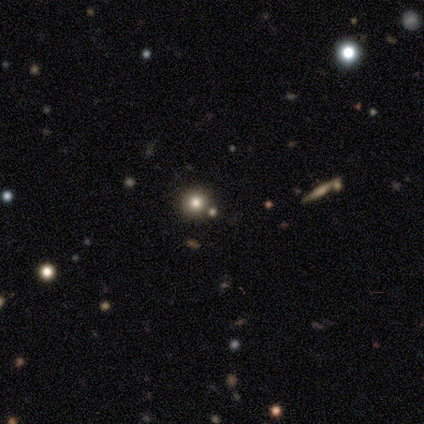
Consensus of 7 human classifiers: A star or artifact, not a galaxy (43%).